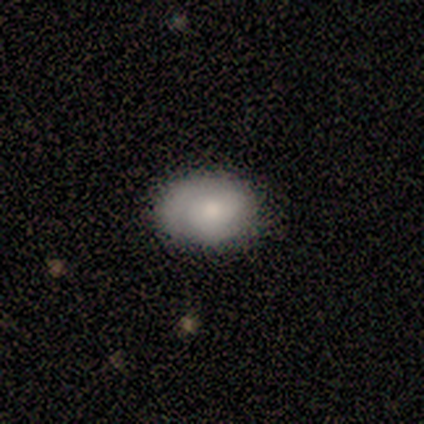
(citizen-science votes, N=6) Smooth or featured? 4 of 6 (67%) said smooth. How rounded? 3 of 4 (75%) said in between. Merging? 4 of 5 (80%) said none.